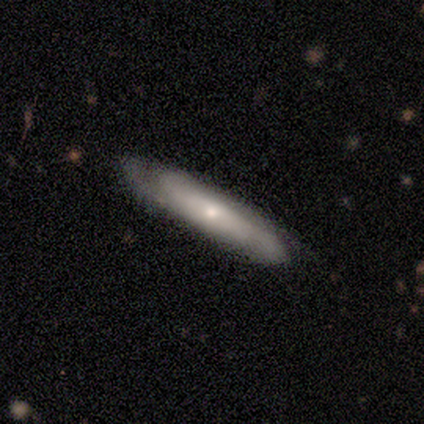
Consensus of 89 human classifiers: Q: Smooth or featured?
A: featured or disk (57%); runner-up: smooth (38%)
Q: Edge-on disk?
A: no (53%); runner-up: yes (47%)
Q: Bar?
A: no (67%); runner-up: weak (19%)
Q: Spiral arms?
A: yes (85%); runner-up: no (15%)
Q: Spiral winding?
A: medium (57%); runner-up: tight (22%)
Q: Spiral arm count?
A: can't tell (57%); runner-up: 2 (22%)
Q: Bulge size?
A: small (63%); runner-up: moderate (30%)
Q: Merging?
A: none (75%); runner-up: minor disturbance (19%)